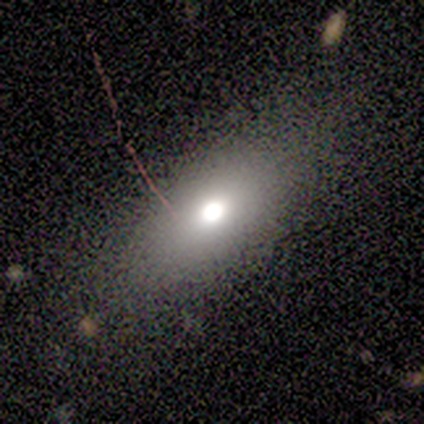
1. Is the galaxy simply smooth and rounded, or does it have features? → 100% smooth, 0% featured or disk, 0% star or artifact.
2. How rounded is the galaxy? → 75% in between, 25% cigar-shaped, 0% round.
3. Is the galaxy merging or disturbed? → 75% none, 25% minor disturbance, 0% major disturbance, 0% merger.